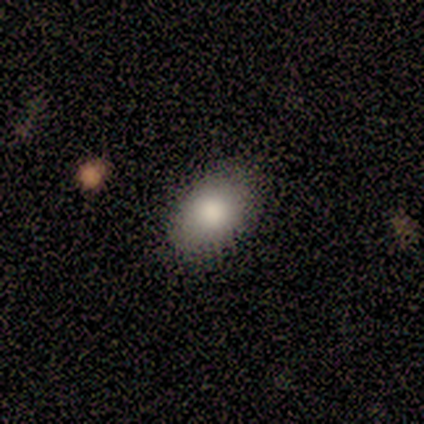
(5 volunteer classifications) A smooth galaxy with no disk features (100%) that is in between round and cigar-shaped (100%).

Vote fractions:
- Smooth or featured? smooth: 100% / featured or disk: 0% / star or artifact: 0%
- How rounded? in between: 100% / round: 0% / cigar-shaped: 0%
- Merging? none: 80% / minor disturbance: 20% / major disturbance: 0% / merger: 0%